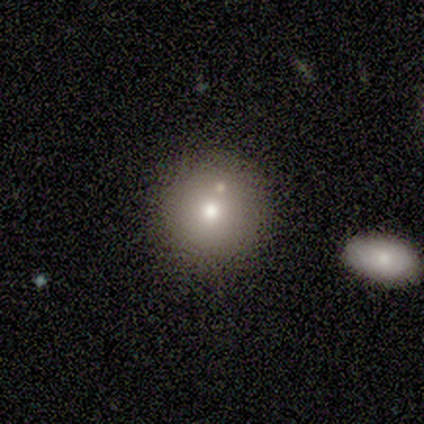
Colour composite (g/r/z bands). It shows a smooth galaxy with no disk features (60%) that is round (100%). Merging: none (67%).